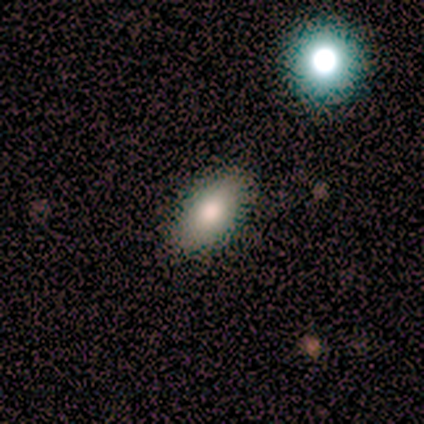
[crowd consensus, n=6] This is clearly a smooth galaxy (83%). How rounded: clearly in between (100%). Merging: clearly none (100%).